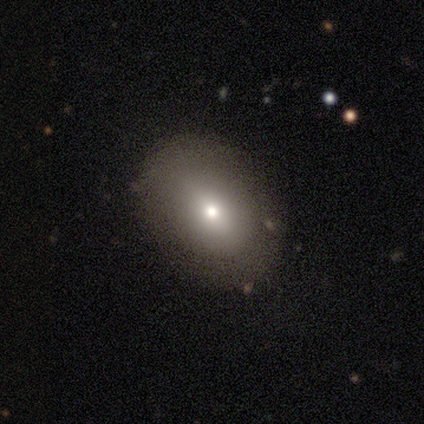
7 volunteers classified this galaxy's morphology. Overall: smooth (86%). How rounded: in between (67%; round 33%). Merging: none (67%; minor disturbance 33%).